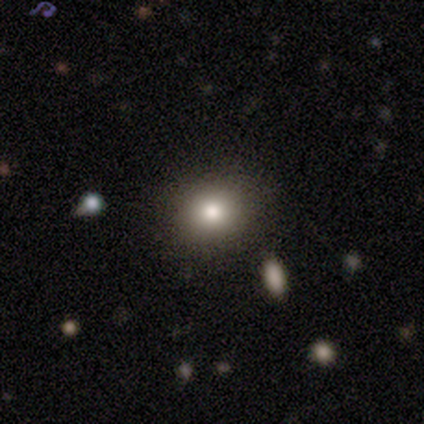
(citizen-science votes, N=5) A smooth galaxy with no disk features (60%) that is round (67%). Merging: none (100%).